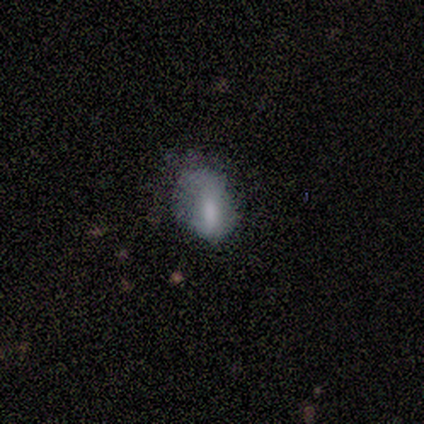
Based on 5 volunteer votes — Overall: smooth (100%). How rounded: in between (80%). Merging: minor disturbance (40%, tied with major disturbance).